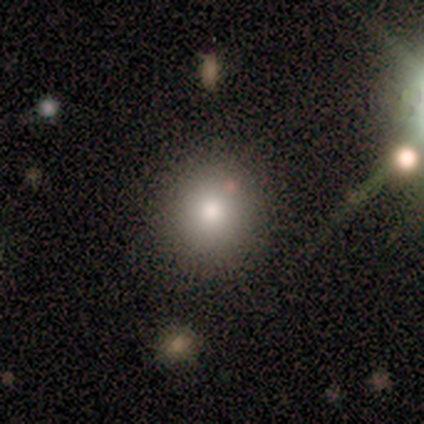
This is likely a smooth galaxy (60%). How rounded: clearly round (100%). Merging: clearly none (100%).